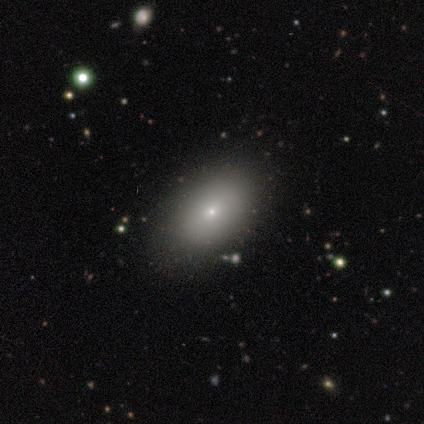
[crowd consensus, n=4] Volunteers were most divided on "smooth or featured" (2-way tie): smooth: 50%, featured or disk: 50%, star or artifact: 0%. More confident: how rounded — in between (100%); merging — none (100%).